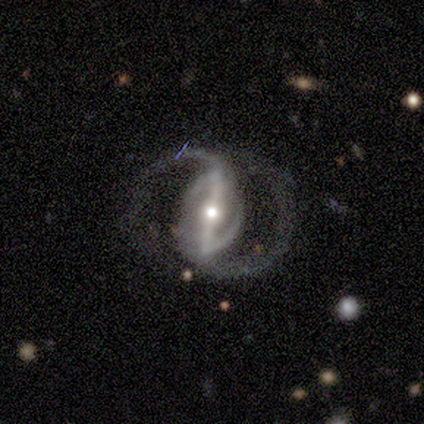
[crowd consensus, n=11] Smooth or featured?
  - featured or disk: 91% *
  - star or artifact: 9%
  - smooth: 0%
Edge-on disk?
  - no: 90% *
  - yes: 10%
Bar?
  - strong: 89% *
  - weak: 11%
  - no: 0%
Spiral arms?
  - yes: 89% *
  - no: 11%
Spiral winding?
  - medium: 75% *
  - loose: 25%
  - tight: 0%
Spiral arm count?
  - 2: 88% *
  - can't tell: 12%
  - 1: 0%
  - 3: 0%
  - 4: 0%
  - more than 4: 0%
Bulge size?
  - moderate: 67% *
  - small: 22%
  - large: 11%
  - dominant: 0%
  - none: 0%
Merging?
  - none: 60% *
  - major disturbance: 20%
  - merger: 20%
  - minor disturbance: 0%